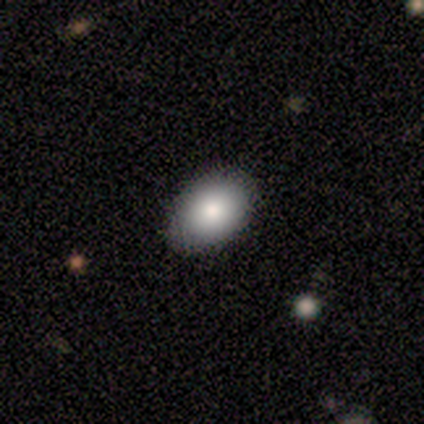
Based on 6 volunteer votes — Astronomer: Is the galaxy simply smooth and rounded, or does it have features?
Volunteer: smooth — 83%.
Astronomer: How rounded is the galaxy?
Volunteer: in between — 100%.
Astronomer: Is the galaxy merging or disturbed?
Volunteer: none — 100%.